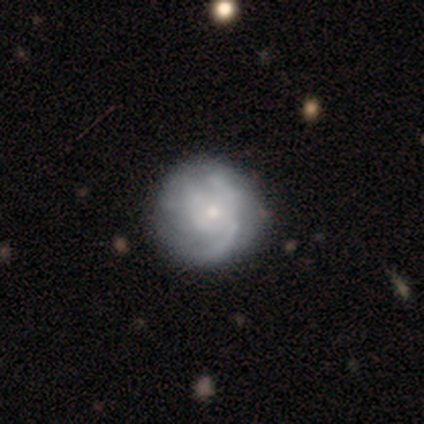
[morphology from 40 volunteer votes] Q: Smooth or featured?
A: featured or disk (82%); runner-up: smooth (15%)
Q: Edge-on disk?
A: no (97%); runner-up: yes (3%)
Q: Bar?
A: no (84%); runner-up: weak (16%)
Q: Spiral arms?
A: yes (66%); runner-up: no (34%)
Q: Spiral winding?
A: tight (33%); tied with: medium (33%); loose (33%)
Q: Spiral arm count?
A: can't tell (52%); runner-up: 3 (24%)
Q: Bulge size?
A: small (78%); runner-up: moderate (9%)
Q: Merging?
A: none (46%); runner-up: minor disturbance (15%)